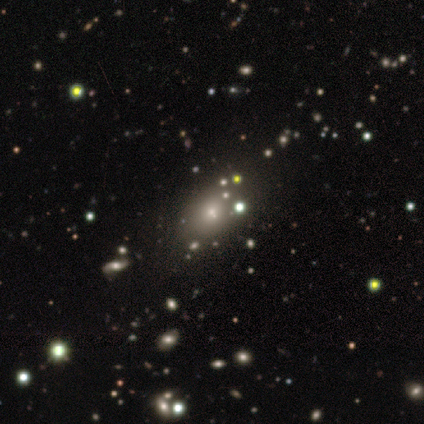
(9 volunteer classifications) Q: Smooth or featured?
A: smooth (44%); tied with: star or artifact (44%)
Q: How rounded?
A: round (50%); runner-up: in between (25%)
Q: Merging?
A: none (60%); runner-up: minor disturbance (20%)